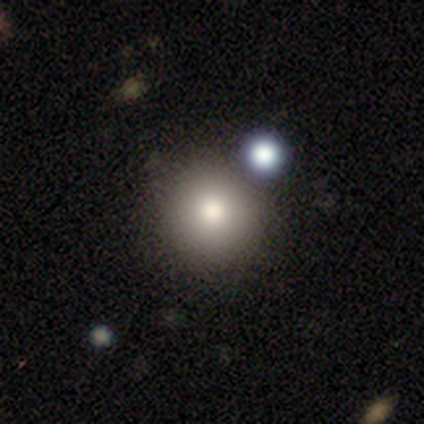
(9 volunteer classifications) A smooth galaxy with no disk features (89%) that is round (100%). Merging: none (67%).